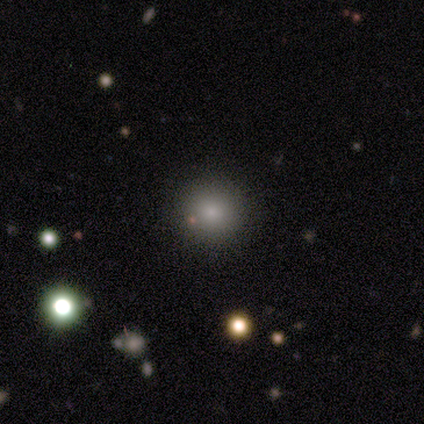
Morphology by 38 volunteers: A smooth galaxy with no disk features (84%) that is round (94%).

Vote fractions:
- Smooth or featured? smooth: 84% / star or artifact: 11% / featured or disk: 5%
- How rounded? round: 94% / in between: 6% / cigar-shaped: 0%
- Merging? none: 88% / merger: 6% / minor disturbance: 3% / major disturbance: 3%